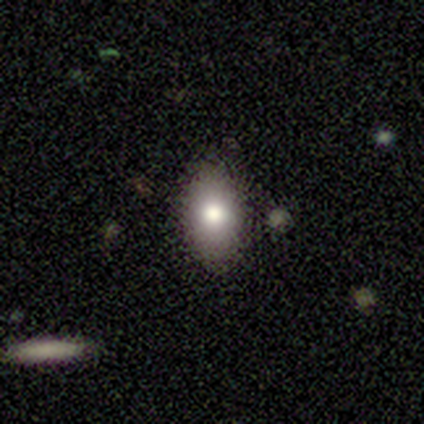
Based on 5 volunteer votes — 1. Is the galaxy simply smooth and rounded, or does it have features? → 100% smooth, 0% featured or disk, 0% star or artifact.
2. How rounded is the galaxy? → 100% in between, 0% round, 0% cigar-shaped.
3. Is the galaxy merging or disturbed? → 40% none, 20% minor disturbance, 20% major disturbance, 20% merger.